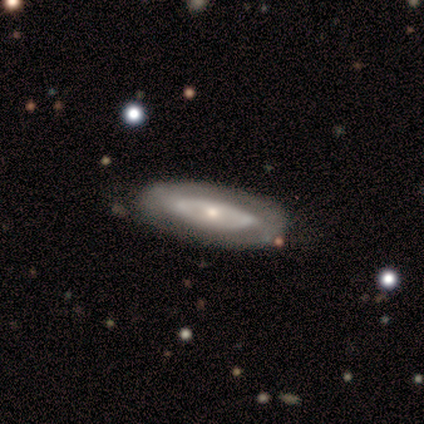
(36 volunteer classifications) A featured or disk galaxy (44%) with no bar (92%), no spiral arms (75%) and a small central bulge (58%). Merging: none (70%).